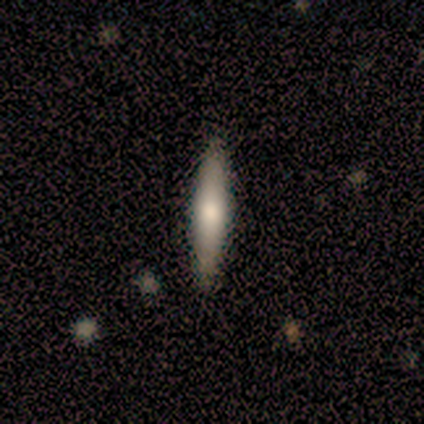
smooth 60%, featured or disk 40%, star or artifact 0%. Down the decision tree: how rounded — cigar-shaped (67%); merging — none (100%).